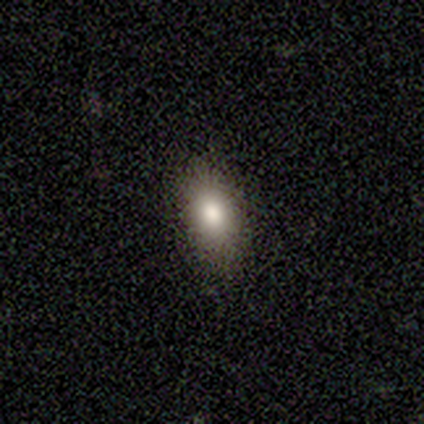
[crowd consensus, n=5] smooth 80%, featured or disk 20%, star or artifact 0%. Down the decision tree: how rounded — in between (100%); merging — none (80%).